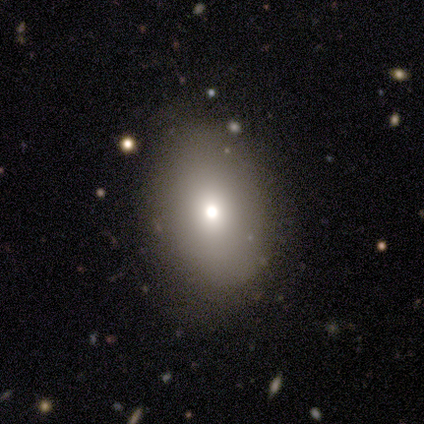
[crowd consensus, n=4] A smooth galaxy with no disk features (50%, tied with featured or disk) that is round (100%). Merging: none (100%).